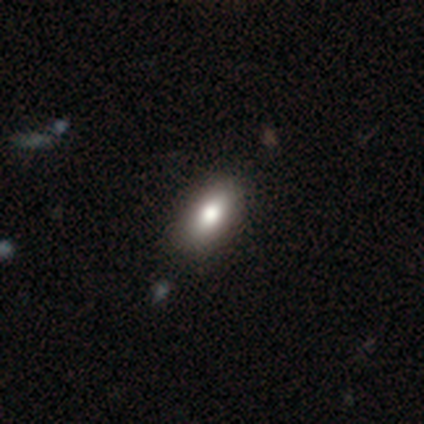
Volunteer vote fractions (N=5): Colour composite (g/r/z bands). It shows a smooth galaxy with no disk features (80%) that is cigar-shaped (50%). Merging: none (80%).